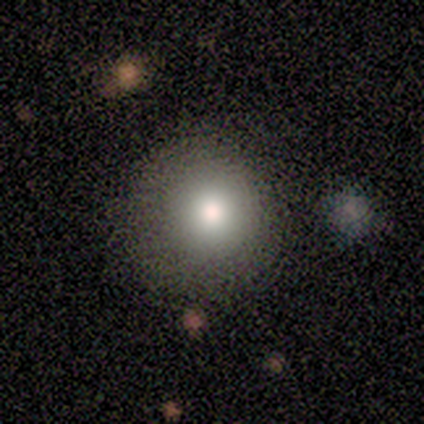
Smooth or featured?
  - smooth: 60% *
  - featured or disk: 20%
  - star or artifact: 20%
How rounded?
  - round: 100% *
  - in between: 0%
  - cigar-shaped: 0%
Merging?
  - none: 75% *
  - major disturbance: 25%
  - minor disturbance: 0%
  - merger: 0%